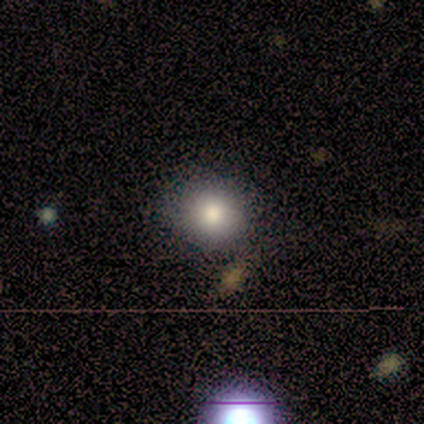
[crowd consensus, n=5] Smooth or featured? 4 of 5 (80%) said smooth. How rounded? 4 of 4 (100%) said round. Merging? 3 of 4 (75%) said none.